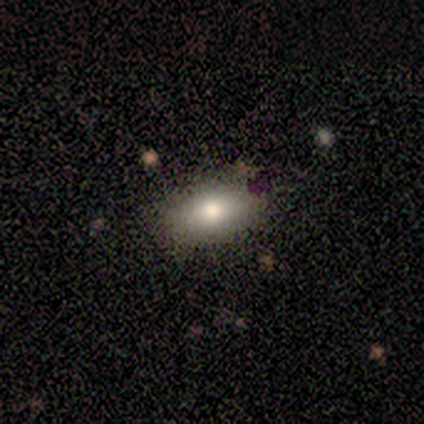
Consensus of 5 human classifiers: smooth 60%, featured or disk 20%, star or artifact 20%. Down the decision tree: how rounded — in between (100%); merging — none (100%).